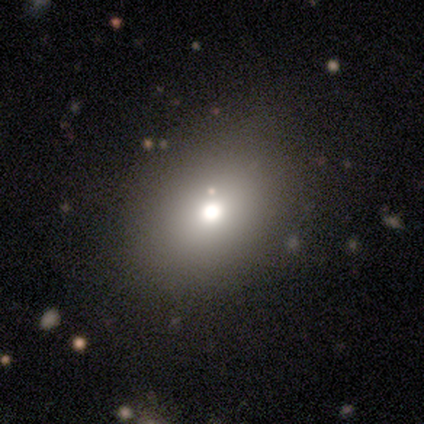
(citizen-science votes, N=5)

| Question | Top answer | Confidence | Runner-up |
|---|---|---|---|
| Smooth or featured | smooth | 60% | featured or disk (20%) |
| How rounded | in between | 67% | round (33%) |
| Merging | none | 100% | — |